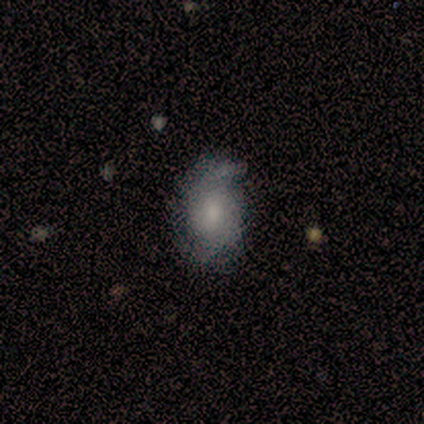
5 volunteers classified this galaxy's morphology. This appears to be a smooth galaxy with no disk features (80%) that is in between round and cigar-shaped (50%). Merging: none (60%).